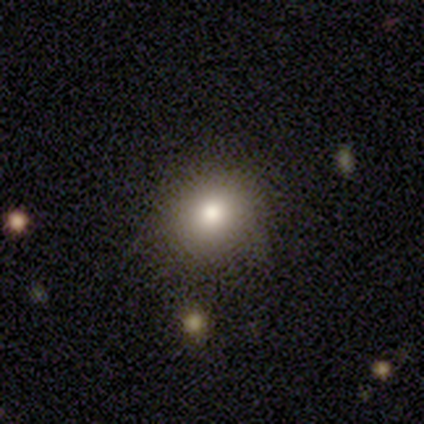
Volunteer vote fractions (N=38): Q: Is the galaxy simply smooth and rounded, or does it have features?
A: smooth — 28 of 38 (74%).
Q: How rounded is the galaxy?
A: round — 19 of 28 (68%).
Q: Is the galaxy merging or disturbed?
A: none — 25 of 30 (83%).